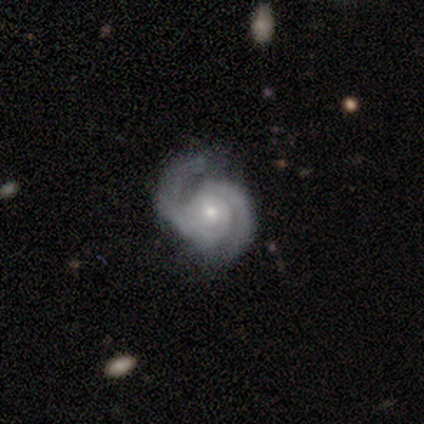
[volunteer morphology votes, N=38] Overall: featured or disk (89%). Edge-on disk: no (97%). Bar: no (76%). Spiral arms: yes (97%). Spiral arm count: 2 (91%). Spiral winding: tight (47%; medium 44%). Bulge size: small (64%; moderate 27%). Merging: none (59%; minor disturbance 26%).